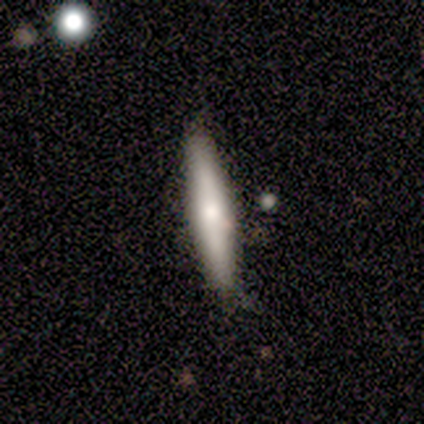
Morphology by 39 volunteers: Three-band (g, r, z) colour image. It shows a smooth galaxy with no disk features (74%) that is cigar-shaped (93%). Merging: none (89%).